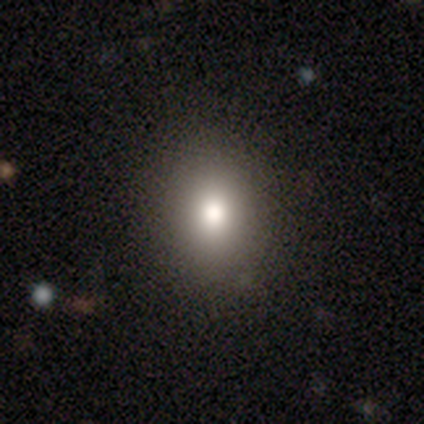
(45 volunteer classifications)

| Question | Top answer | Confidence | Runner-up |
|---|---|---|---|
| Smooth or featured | smooth | 69% | star or artifact (24%) |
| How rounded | in between | 68% | round (32%) |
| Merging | none | 82% | major disturbance (9%) |